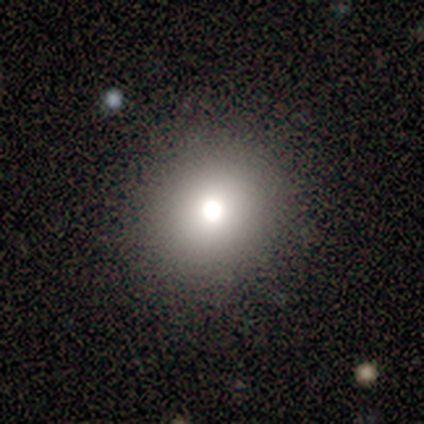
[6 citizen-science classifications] smooth-or-featured: smooth: 67% | featured or disk: 17% | star or artifact: 17%
  how-rounded: round: 100% | in between: 0% | cigar-shaped: 0%
  merging: none: 100% | minor disturbance: 0% | major disturbance: 0% | merger: 0%